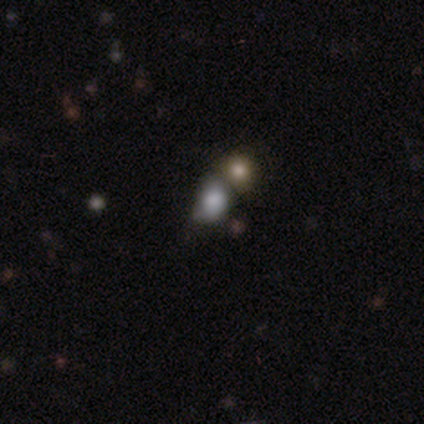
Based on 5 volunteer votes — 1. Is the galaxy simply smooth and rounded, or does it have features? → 60% smooth, 40% star or artifact, 0% featured or disk.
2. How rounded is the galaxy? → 100% in between, 0% round, 0% cigar-shaped.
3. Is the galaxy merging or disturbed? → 67% none, 33% merger, 0% minor disturbance, 0% major disturbance.